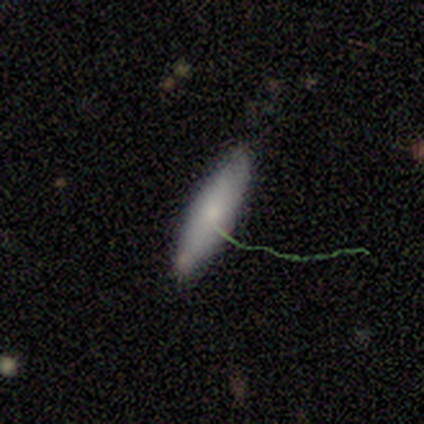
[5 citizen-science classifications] This appears to be a smooth galaxy with no disk features (80%) that is cigar-shaped (75%). Merging: none (80%).